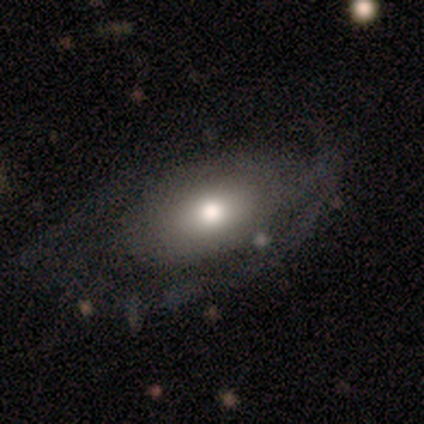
Morphology: type=smooth (60%); roundness=in between (67%); merging=none (50%, tied with minor disturbance).